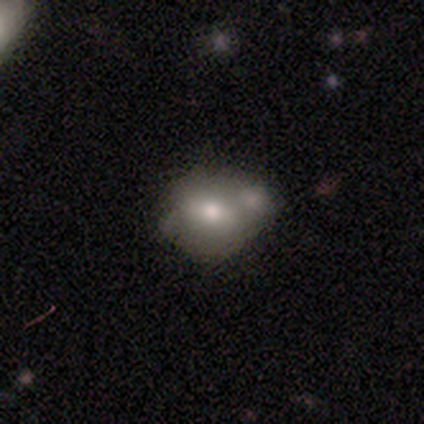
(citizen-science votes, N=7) smooth-or-featured: smooth: 71% | featured or disk: 14% | star or artifact: 14%
  how-rounded: in between: 80% | round: 20% | cigar-shaped: 0%
  merging: none: 33% (tied) | minor disturbance: 33% (tied) | merger: 33% (tied) | major disturbance: 0%